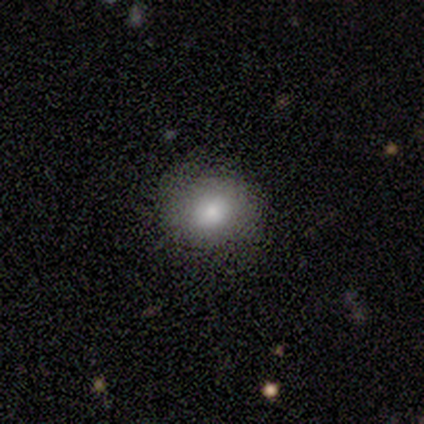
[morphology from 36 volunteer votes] smooth_or_featured: smooth (p=0.81) [alt: featured or disk p=0.14]
how_rounded: round (p=0.76) [alt: in between p=0.21]
merging: none (p=0.76) [alt: minor disturbance p=0.15]